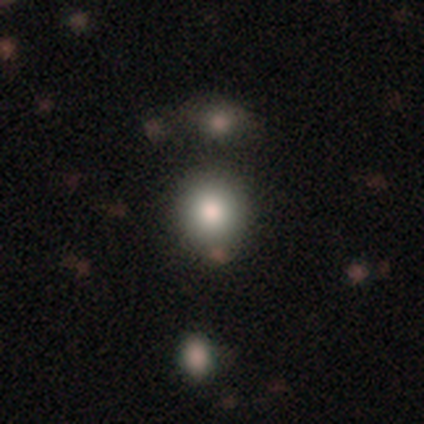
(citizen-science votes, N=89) Smooth or featured? smooth (81%)
How rounded? round (92%)
Merging? none (87%)